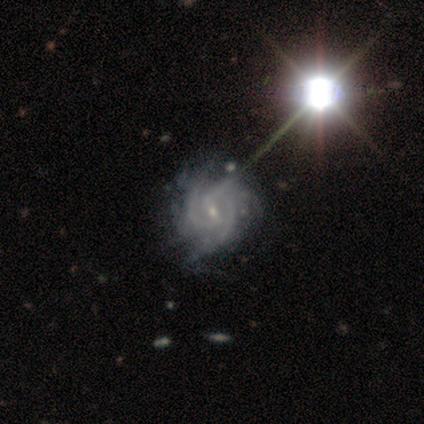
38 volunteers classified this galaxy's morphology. This is clearly a featured or disk galaxy (89%). It is clearly not viewed edge-on (100%). Bar: likely weak (74%). Spiral arm pattern: clearly yes (100%). Spiral arm count: marginally 3 (41%). Spiral winding: possibly tight (56%). Central bulge: clearly small (82%). Merging: possibly none (57%).